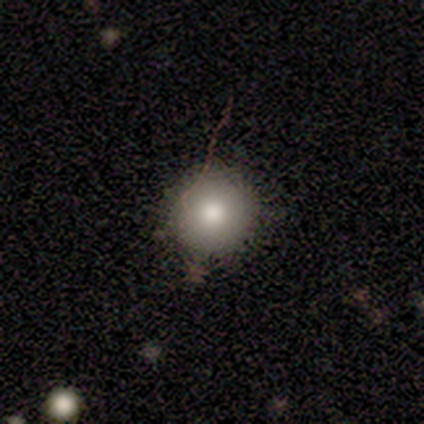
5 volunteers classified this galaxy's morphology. A smooth galaxy with no disk features (80%) that is round (100%).

Vote fractions:
- Smooth or featured? smooth: 80% / star or artifact: 20% / featured or disk: 0%
- How rounded? round: 100% / in between: 0% / cigar-shaped: 0%
- Merging? none: 75% / minor disturbance: 25% / major disturbance: 0% / merger: 0%